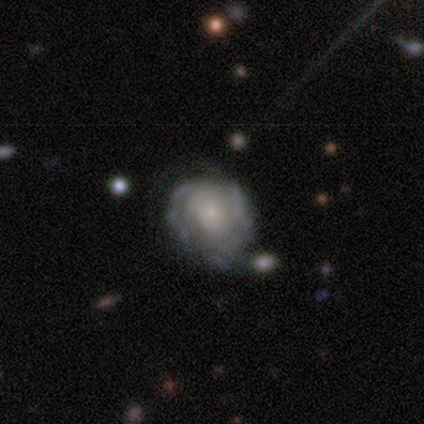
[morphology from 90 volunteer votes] This appears to be a featured or disk galaxy (79%) with no bar (87%), tight (73%) spiral arms (73%) and a small central bulge (79%). Merging: none (52%).